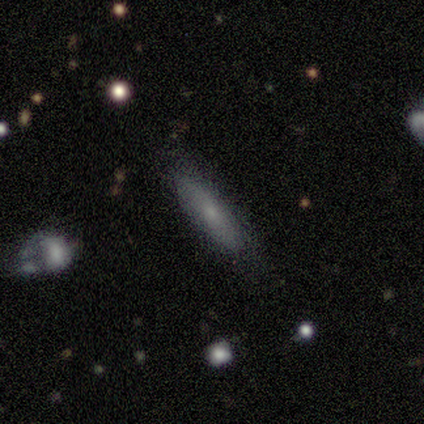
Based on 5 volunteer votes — This is clearly a smooth galaxy (100%). How rounded: clearly cigar-shaped (80%). Merging: clearly none (100%).